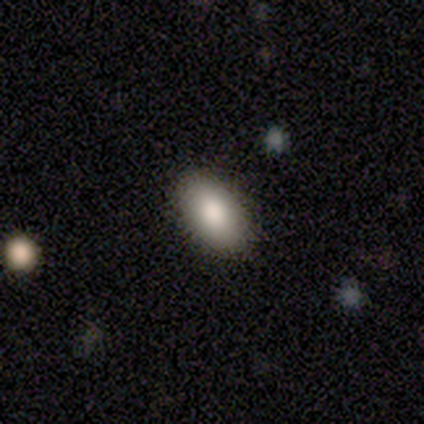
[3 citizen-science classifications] A smooth galaxy with no disk features (67%) that is in between round and cigar-shaped (100%).

Vote fractions:
- Smooth or featured? smooth: 67% / featured or disk: 33% / star or artifact: 0%
- How rounded? in between: 100% / round: 0% / cigar-shaped: 0%
- Merging? none: 100% / minor disturbance: 0% / major disturbance: 0% / merger: 0%